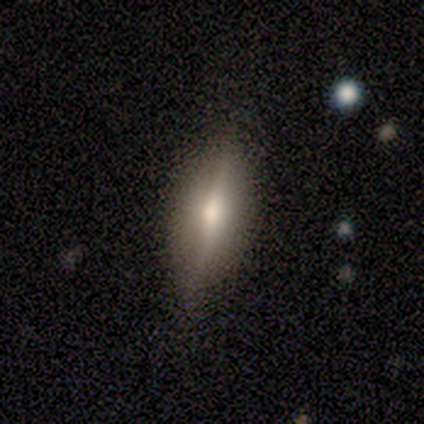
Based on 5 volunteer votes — This appears to be a smooth galaxy with no disk features (60%) that is in between round and cigar-shaped (67%). Merging: none (100%).